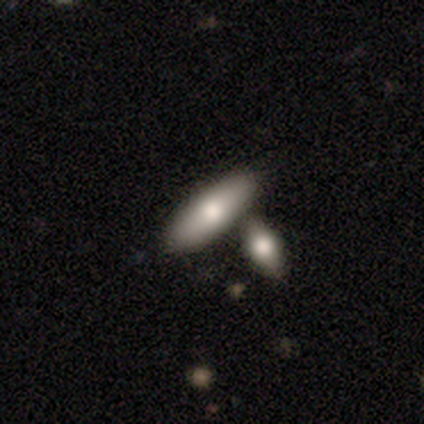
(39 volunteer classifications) Q: Smooth or featured?
A: smooth (82%); runner-up: featured or disk (15%)
Q: How rounded?
A: in between (72%); runner-up: cigar-shaped (28%)
Q: Merging?
A: merger (71%)